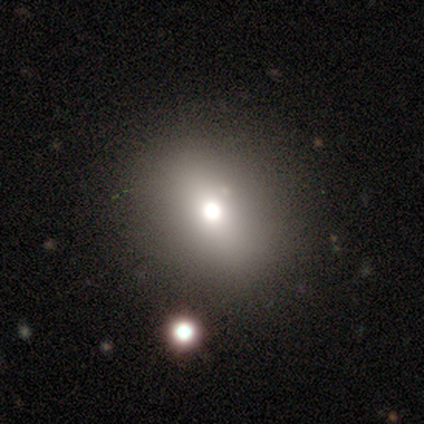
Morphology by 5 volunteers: Volunteers were most divided on "smooth or featured": smooth: 60%, featured or disk: 40%, star or artifact: 0%. More confident: merging — none (80%); how rounded — round (67%).